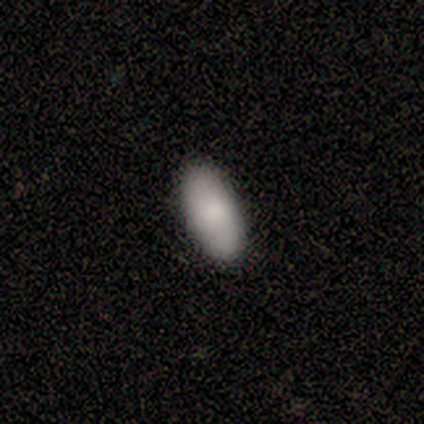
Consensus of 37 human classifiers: smooth-or-featured: smooth: 89% | featured or disk: 8% | star or artifact: 3%
  how-rounded: in between: 97% | cigar-shaped: 3% | round: 0%
  merging: none: 86% | minor disturbance: 14% | major disturbance: 0% | merger: 0%